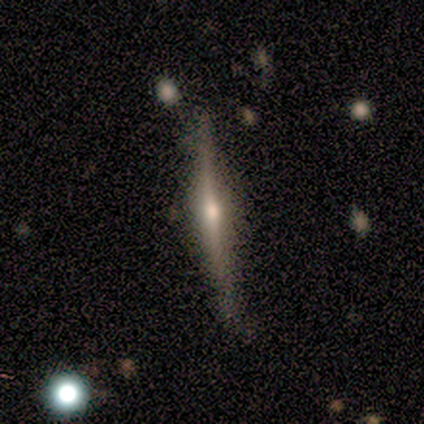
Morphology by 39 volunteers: A featured or disk galaxy (74%) viewed edge-on (100%) with a rounded central bulge (93%). Merging: none (84%).